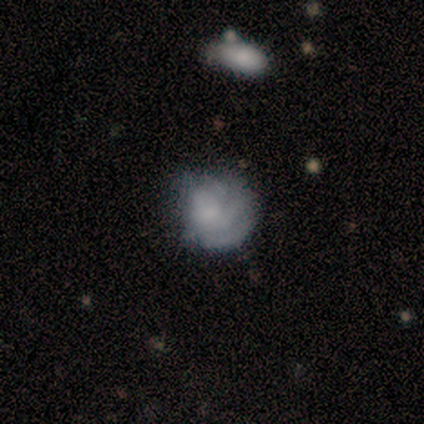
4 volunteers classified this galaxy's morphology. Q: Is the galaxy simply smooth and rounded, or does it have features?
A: smooth — 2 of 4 (50%, tied with featured or disk).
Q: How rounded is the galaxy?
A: round — 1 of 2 (50%, tied with in between).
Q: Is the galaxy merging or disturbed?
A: minor disturbance — 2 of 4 (50%).